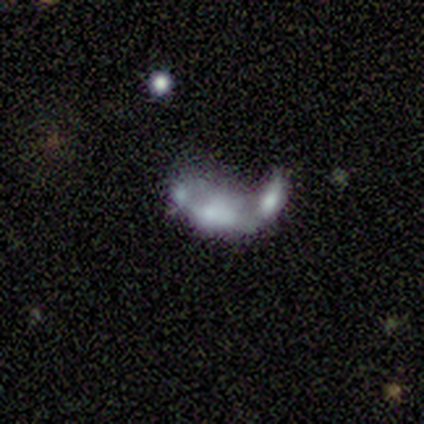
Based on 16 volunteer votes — Smooth or featured: smooth — 44% (tied with featured or disk — 44%)
How rounded: in between — 57% (cigar-shaped — 43%)
Merging: merger — 64% (none — 21%)